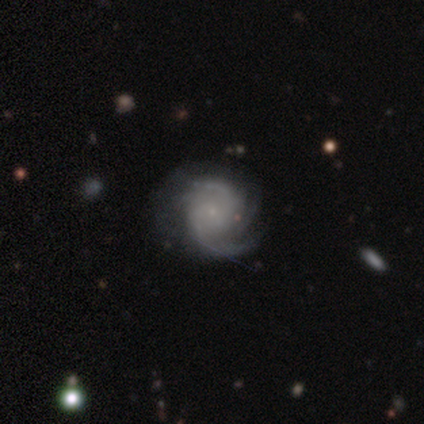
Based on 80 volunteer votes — Smooth or featured: featured or disk — 94% (star or artifact — 4%)
Edge-on disk: no — 100%
Bar: no — 73% (weak — 27%)
Spiral arms: yes — 99% (no — 1%)
Spiral winding: medium — 54% (tight — 35%)
Spiral arm count: 2 — 35% (3 — 26%)
Bulge size: small — 81% (none — 15%)
Merging: none — 32% (minor disturbance — 10%)